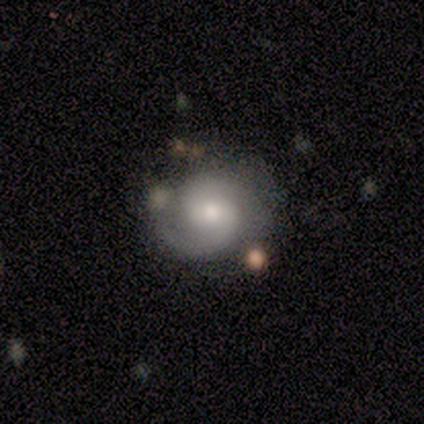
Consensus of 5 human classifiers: smooth_or_featured: featured or disk (p=0.80) [alt: smooth p=0.20]
disk_edge_on: no (p=1.00)
bar: no (p=0.75) [alt: weak p=0.25]
has_spiral_arms: yes (p=1.00)
spiral_winding: tight (p=0.75) [alt: medium p=0.25]
spiral_arm_count: 2 (p=0.75) [alt: can't tell p=0.25]
bulge_size: moderate (p=0.50) [tied with: small p=0.50]
merging: none (p=0.60) [alt: minor disturbance p=0.20]